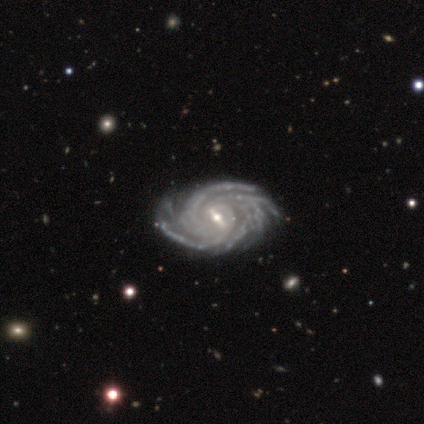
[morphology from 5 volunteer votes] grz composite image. It shows a featured or disk galaxy (100%) with a strong bar (50%, tied with weak), 3 (25%, tied with 4, more than 4 and can't tell) tight (100%) spiral arms (100%) and a moderate central bulge (50%, tied with small). Merging: none (60%).